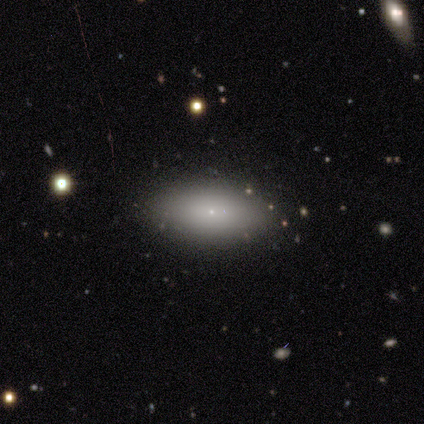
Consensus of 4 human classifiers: Smooth or featured? 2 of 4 (50%, tied with featured or disk) said smooth. How rounded? 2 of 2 (100%) said in between. Merging? 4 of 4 (100%) said none.